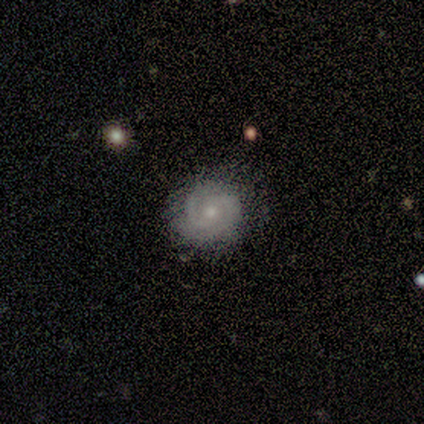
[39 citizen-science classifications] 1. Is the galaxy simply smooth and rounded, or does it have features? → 67% featured or disk, 18% smooth, 15% star or artifact.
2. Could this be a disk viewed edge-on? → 100% no, 0% yes.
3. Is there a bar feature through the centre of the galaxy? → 85% no, 15% weak, 0% strong.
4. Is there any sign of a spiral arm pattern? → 96% yes, 4% no.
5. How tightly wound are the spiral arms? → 60% tight, 28% medium, 12% loose.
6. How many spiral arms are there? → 64% 2, 24% can't tell, 12% 1, 0% 3, 0% 4, 0% more than 4.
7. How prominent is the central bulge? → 77% small, 23% moderate, 0% dominant, 0% large, 0% none.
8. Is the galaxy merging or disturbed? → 85% none, 9% minor disturbance, 6% major disturbance, 0% merger.